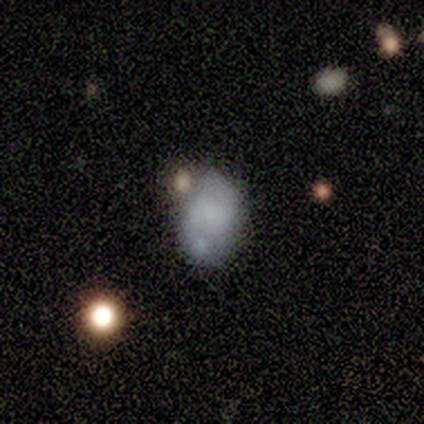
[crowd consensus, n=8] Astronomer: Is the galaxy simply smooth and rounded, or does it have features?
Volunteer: smooth — 62%.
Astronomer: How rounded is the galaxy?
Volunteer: in between — 100%.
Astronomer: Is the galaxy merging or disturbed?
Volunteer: none — 43% (runner-up: minor disturbance, 29%).